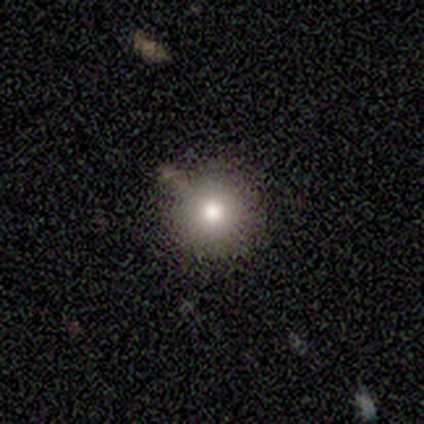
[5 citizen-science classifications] Smooth or featured? smooth (80%)
How rounded? round (100%)
Merging? none (80%)